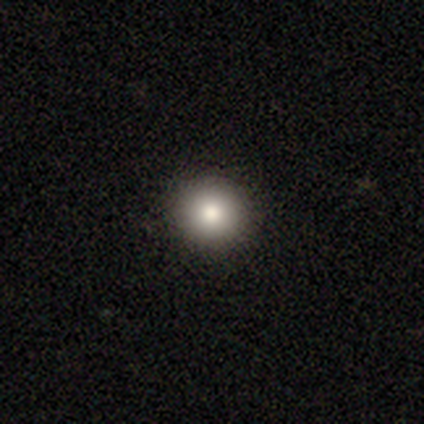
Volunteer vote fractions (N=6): Smooth or featured?
  - smooth: 83% *
  - featured or disk: 17%
  - star or artifact: 0%
How rounded?
  - round: 100% *
  - in between: 0%
  - cigar-shaped: 0%
Merging?
  - none: 100% *
  - minor disturbance: 0%
  - major disturbance: 0%
  - merger: 0%